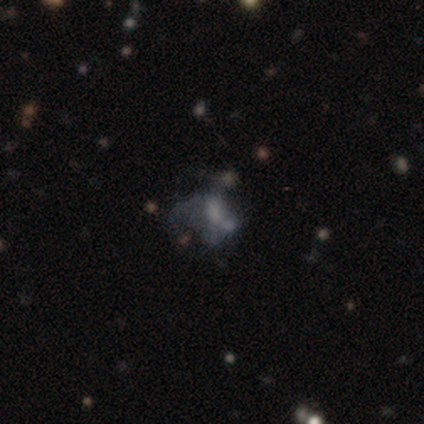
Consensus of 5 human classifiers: Overall: featured or disk (80%). Edge-on disk: no (75%). Bar: no (100%). Spiral arms: no (100%). Bulge size: none (67%; moderate 33%). Merging: none (40%; minor disturbance 20%).